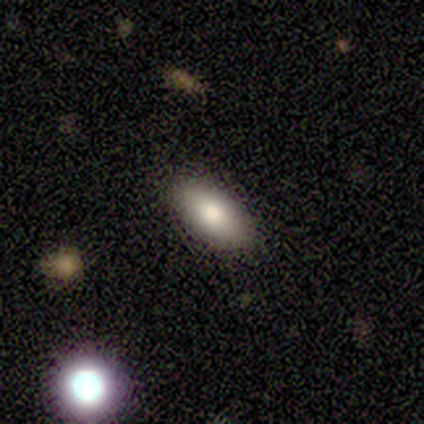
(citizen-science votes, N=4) Morphology: type=smooth (100%); roundness=in between (100%); merging=none (100%).